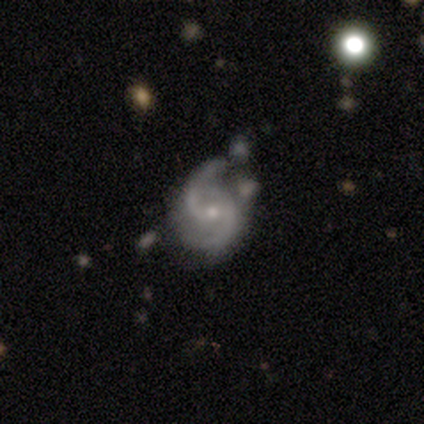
smooth-or-featured: featured or disk: 90% | smooth: 8% | star or artifact: 2%
  disk-edge-on: no: 100% | yes: 0%
    bar: no: 44% | weak: 42% | strong: 14%
    has-spiral-arms: yes: 100% | no: 0%
      spiral-winding: medium: 56% | loose: 42% | tight: 3%
      spiral-arm-count: 2: 94% | 3: 3% | can't tell: 3% | 1: 0% | 4: 0% | more than 4: 0%
    bulge-size: small: 53% | moderate: 47% | dominant: 0% | large: 0% | none: 0%
  merging: none: 54% | minor disturbance: 31% | merger: 10% | major disturbance: 5%